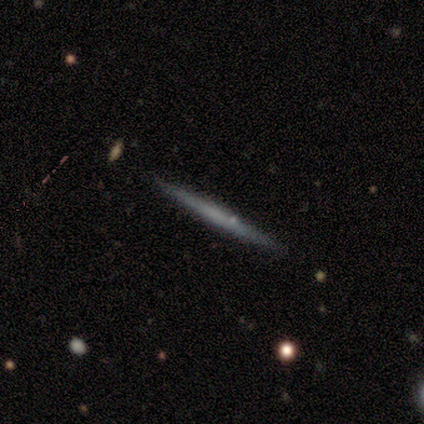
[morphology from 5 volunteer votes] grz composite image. It shows a smooth galaxy with no disk features (80%) that is cigar-shaped (100%). Merging: none (100%).